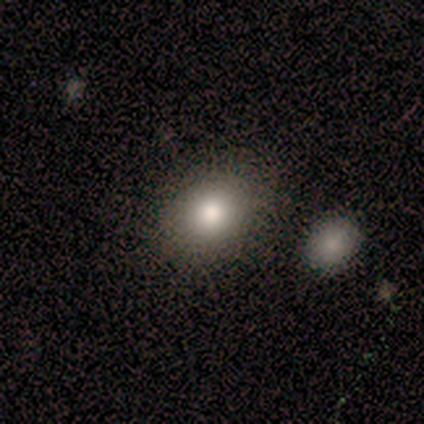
Smooth or featured?
  - smooth: 75% *
  - featured or disk: 12%
  - star or artifact: 12%
How rounded?
  - round: 67% *
  - in between: 33%
  - cigar-shaped: 0%
Merging?
  - none: 71% *
  - minor disturbance: 14%
  - major disturbance: 14%
  - merger: 0%